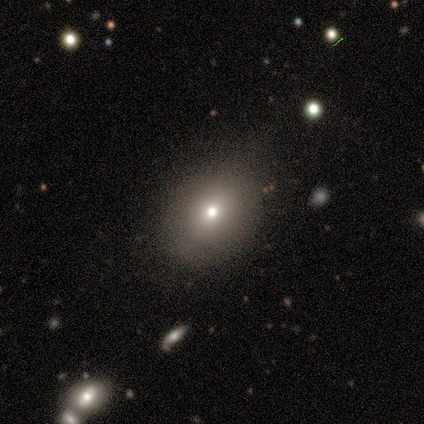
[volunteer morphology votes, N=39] Volunteers were most divided on "how rounded": in between: 54%, round: 46%, cigar-shaped: 0%. More confident: merging — none (81%); smooth or featured — smooth (72%).